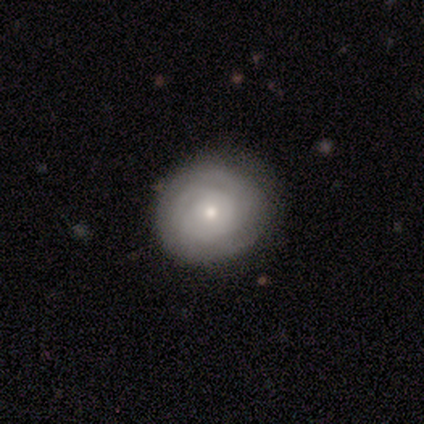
Q: Smooth or featured?
A: smooth (60%); runner-up: featured or disk (40%)
Q: How rounded?
A: round (67%); runner-up: in between (33%)
Q: Merging?
A: none (60%); runner-up: minor disturbance (40%)